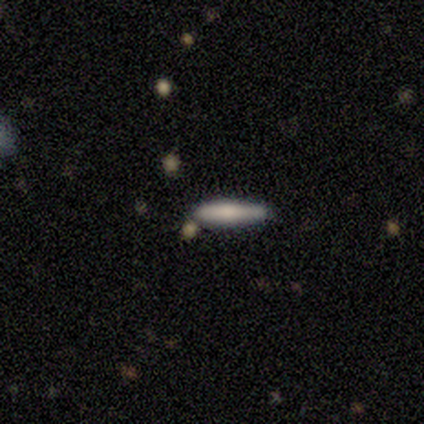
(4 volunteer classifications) Q: Smooth or featured?
A: smooth (75%); runner-up: featured or disk (25%)
Q: How rounded?
A: cigar-shaped (100%)
Q: Merging?
A: none (100%)